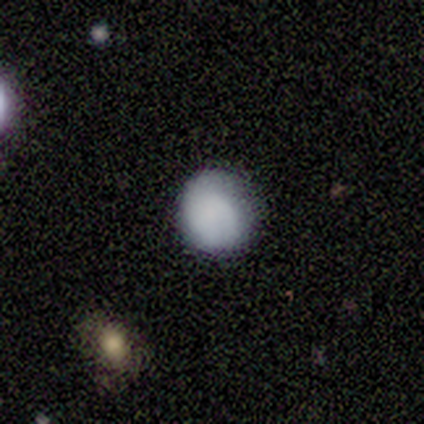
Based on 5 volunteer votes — A smooth galaxy with no disk features (100%) that is round (80%). Merging: none (80%).